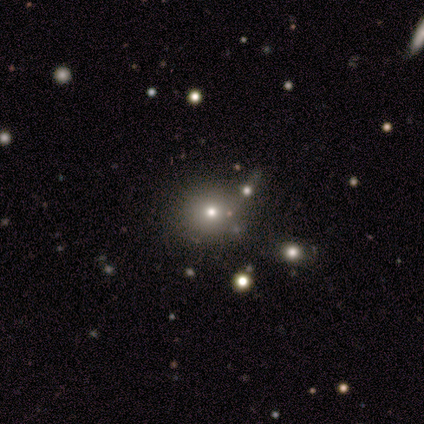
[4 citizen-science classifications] smooth-or-featured: smooth: 75% | star or artifact: 25% | featured or disk: 0%
  how-rounded: round: 100% | in between: 0% | cigar-shaped: 0%
  merging: none: 67% | merger: 33% | minor disturbance: 0% | major disturbance: 0%